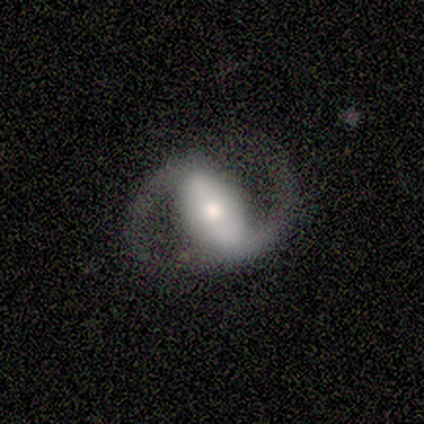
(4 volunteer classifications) Overall: featured or disk (100%). Edge-on disk: no (100%). Bar: strong (50%, tied with weak). Spiral arms: yes (100%). Spiral arm count: 2 (75%). Spiral winding: medium (75%). Bulge size: small (75%). Merging: none (75%).